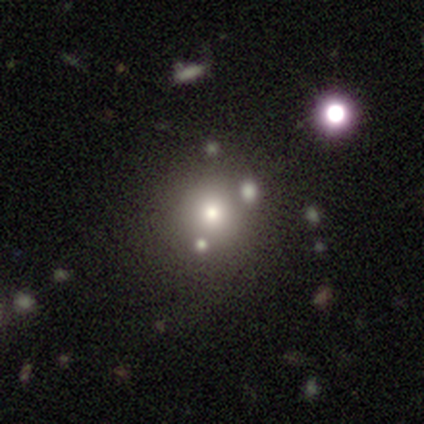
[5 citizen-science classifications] smooth-or-featured: star or artifact: 60% | smooth: 40% | featured or disk: 0%